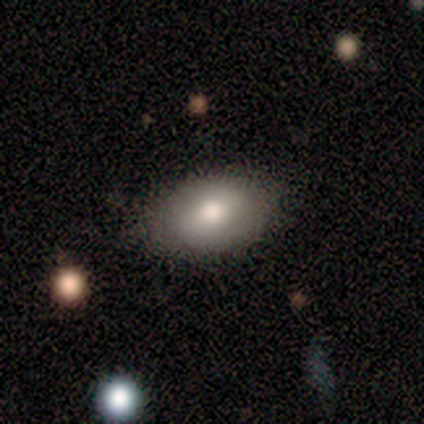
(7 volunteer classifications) smooth_or_featured: smooth (p=0.57) [alt: featured or disk p=0.43]
how_rounded: in between (p=1.00)
merging: none (p=0.86) [alt: minor disturbance p=0.14]